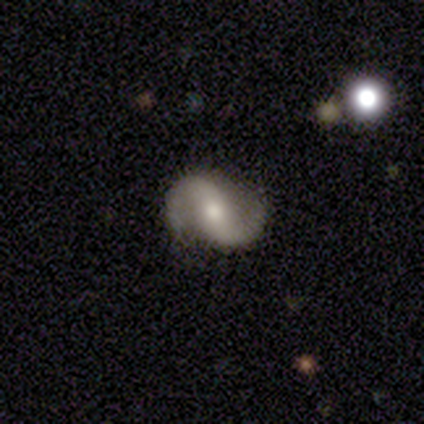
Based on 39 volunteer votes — A featured or disk galaxy (87%) with no bar (52%), 2 (97%) loose (48%) spiral arms (100%) and a moderate central bulge (64%). Merging: none (82%).